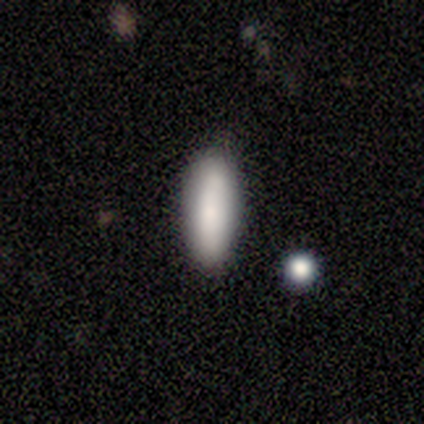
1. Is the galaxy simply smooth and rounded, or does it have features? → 100% smooth, 0% featured or disk, 0% star or artifact.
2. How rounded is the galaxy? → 60% cigar-shaped, 40% in between, 0% round.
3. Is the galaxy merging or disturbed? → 100% none, 0% minor disturbance, 0% major disturbance, 0% merger.